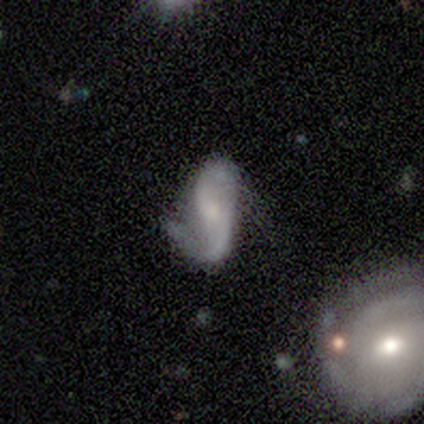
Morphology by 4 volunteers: A featured or disk galaxy (75%) with no bar (67%), 2 (100%) loose (67%) spiral arms (100%) and a small central bulge (67%).

Vote fractions:
- Smooth or featured? featured or disk: 75% / smooth: 25% / star or artifact: 0%
- Edge-on disk? no: 100% / yes: 0%
- Bar? no: 67% / strong: 33% / weak: 0%
- Spiral arms? yes: 100% / no: 0%
- Spiral winding? loose: 67% / medium: 33% / tight: 0%
- Spiral arm count? 2: 100% / 1: 0% / 3: 0% / 4: 0% / more than 4: 0% / can't tell: 0%
- Bulge size? small: 67% / none: 33% / dominant: 0% / large: 0% / moderate: 0%
- Merging? none: 50% / minor disturbance: 25% / major disturbance: 25% / merger: 0%